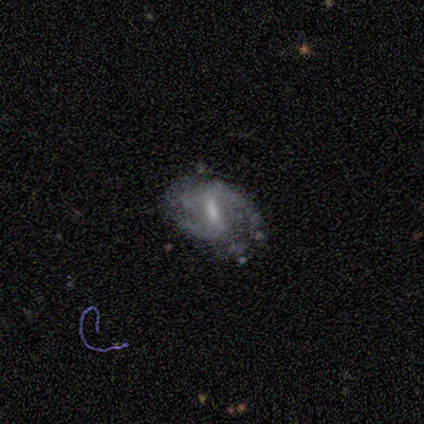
Smooth or featured?
  - featured or disk: 64% *
  - smooth: 26%
  - star or artifact: 10%
Edge-on disk?
  - no: 96% *
  - yes: 4%
Bar?
  - weak: 50% *
  - strong: 38%
  - no: 12%
Spiral arms?
  - yes: 79% *
  - no: 21%
Spiral winding?
  - medium: 42% *
  - loose: 32%
  - tight: 26%
Spiral arm count?
  - 2: 68% *
  - can't tell: 26%
  - 3: 5%
  - 1: 0%
  - 4: 0%
  - more than 4: 0%
Bulge size?
  - small: 38% *
  - moderate: 29%
  - none: 29%
  - large: 4%
  - dominant: 0%
Merging?
  - none: 46% *
  - minor disturbance: 37%
  - major disturbance: 17%
  - merger: 0%